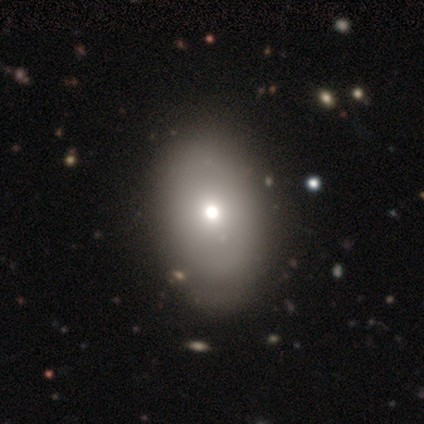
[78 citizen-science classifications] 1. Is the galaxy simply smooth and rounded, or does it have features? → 76% smooth, 15% featured or disk, 9% star or artifact.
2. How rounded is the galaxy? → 78% in between, 20% round, 2% cigar-shaped.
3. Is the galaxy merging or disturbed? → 37% none, 14% minor disturbance, 1% major disturbance, 1% merger.